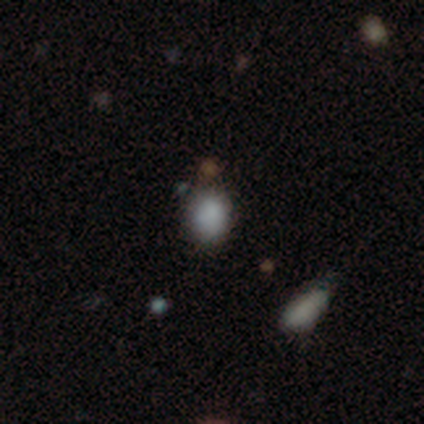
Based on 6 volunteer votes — This appears to be a smooth galaxy with no disk features (83%) that is in between round and cigar-shaped (80%). Merging: none (83%).